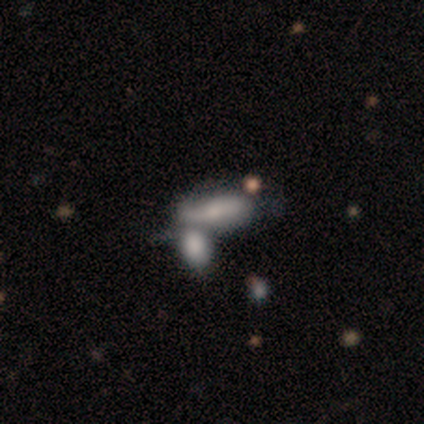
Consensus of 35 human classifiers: smooth 54%, featured or disk 29%, star or artifact 17%. Down the decision tree: how rounded — in between (89%); merging — merger (45%).